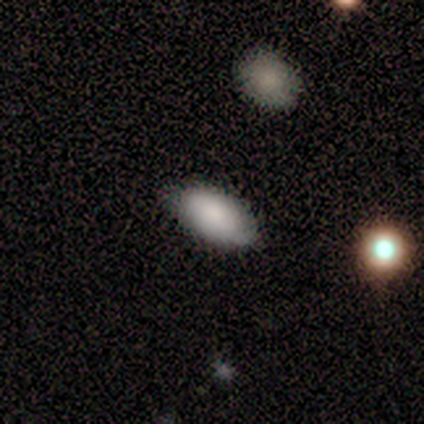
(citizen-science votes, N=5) smooth 100%, featured or disk 0%, star or artifact 0%. Down the decision tree: how rounded — in between (100%); merging — none (100%).